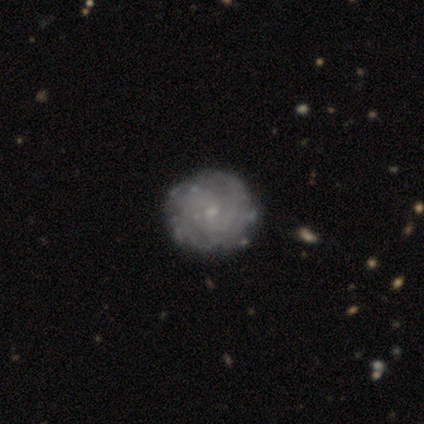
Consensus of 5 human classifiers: Q: Smooth or featured?
A: featured or disk (100%)
Q: Edge-on disk?
A: no (100%)
Q: Bar?
A: no (80%); runner-up: weak (20%)
Q: Spiral arms?
A: yes (100%)
Q: Spiral winding?
A: tight (80%); runner-up: medium (20%)
Q: Spiral arm count?
A: 2 (40%); runner-up: 3 (20%)
Q: Bulge size?
A: small (80%); runner-up: moderate (20%)
Q: Merging?
A: none (100%)